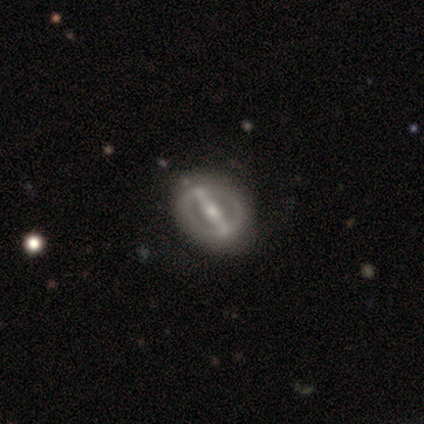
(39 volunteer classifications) Smooth or featured? featured or disk (69%)
Edge-on disk? no (93%)
Bar? strong (88%)
Spiral arms? yes (56%)
Spiral winding? tight (57%)
Spiral arm count? 2 (57%)
Bulge size? small (72%)
Merging? none (73%)